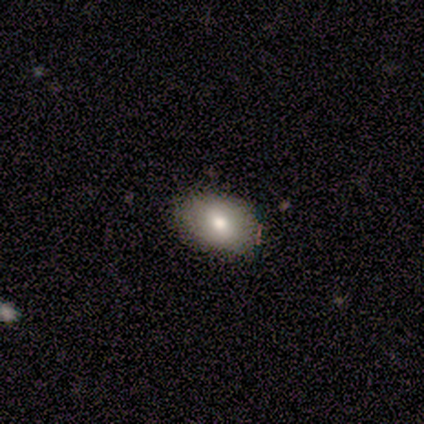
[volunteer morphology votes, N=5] Volunteers were most divided on "smooth or featured": smooth: 60%, featured or disk: 40%, star or artifact: 0%. More confident: how rounded — in between (100%); merging — none (100%).